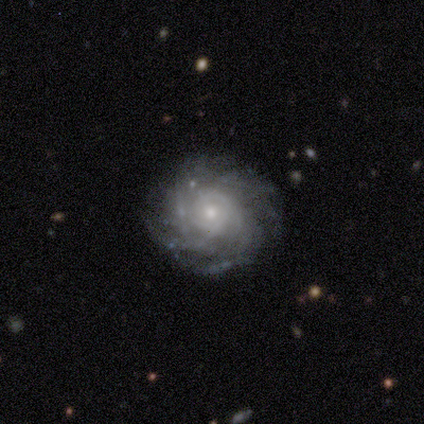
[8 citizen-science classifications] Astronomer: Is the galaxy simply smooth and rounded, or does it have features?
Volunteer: featured or disk — 88%.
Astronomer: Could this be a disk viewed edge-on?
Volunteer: no — 100%.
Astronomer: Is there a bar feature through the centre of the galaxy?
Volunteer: no — 71%.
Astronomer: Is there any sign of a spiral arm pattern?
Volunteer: yes — 100%.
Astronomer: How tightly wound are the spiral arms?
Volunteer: tight — 57% (runner-up: medium, 43%).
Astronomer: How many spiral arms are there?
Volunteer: can't tell — 57%.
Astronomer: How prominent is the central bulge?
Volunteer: small — 57% (runner-up: moderate, 43%).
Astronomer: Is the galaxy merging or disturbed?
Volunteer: none — 100%.